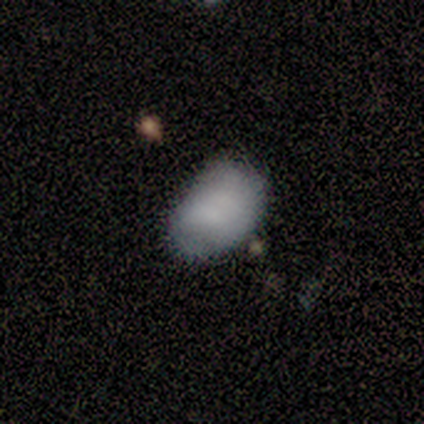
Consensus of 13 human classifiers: smooth_or_featured: smooth (p=0.85) [alt: featured or disk p=0.08]
how_rounded: in between (p=0.82) [alt: round p=0.18]
merging: none (p=0.67) [alt: minor disturbance p=0.25]